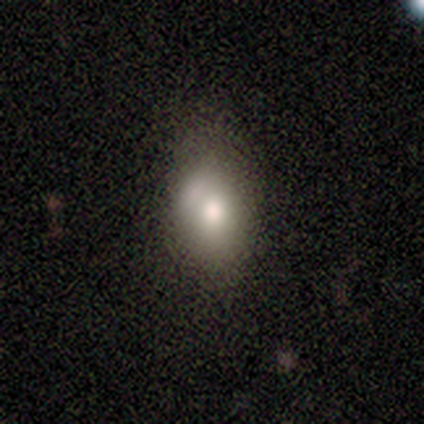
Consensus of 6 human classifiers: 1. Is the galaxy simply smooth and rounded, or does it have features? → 83% smooth, 17% featured or disk, 0% star or artifact.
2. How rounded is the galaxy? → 100% in between, 0% round, 0% cigar-shaped.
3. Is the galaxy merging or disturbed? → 50% minor disturbance, 33% none, 17% merger, 0% major disturbance.